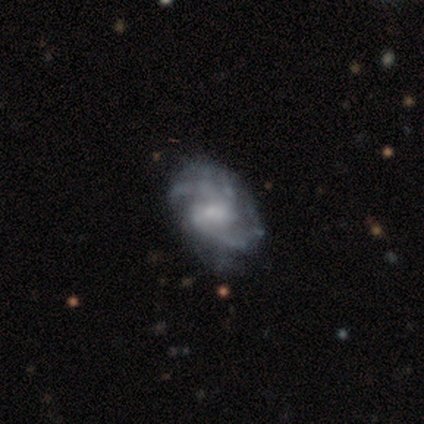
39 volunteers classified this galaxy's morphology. Smooth or featured?
  - featured or disk: 97% *
  - smooth: 3%
  - star or artifact: 0%
Edge-on disk?
  - no: 95% *
  - yes: 5%
Bar?
  - no: 47% *
  - weak: 33%
  - strong: 19%
Spiral arms?
  - yes: 92% *
  - no: 8%
Spiral winding?
  - medium: 67% *
  - tight: 21%
  - loose: 12%
Spiral arm count?
  - 2: 58% *
  - can't tell: 18%
  - 3: 15%
  - 4: 6%
  - more than 4: 3%
  - 1: 0%
Bulge size?
  - none: 44% *
  - moderate: 33%
  - small: 22%
  - dominant: 0%
  - large: 0%
Merging?
  - none: 36% *
  - major disturbance: 15%
  - merger: 5%
  - minor disturbance: 0%